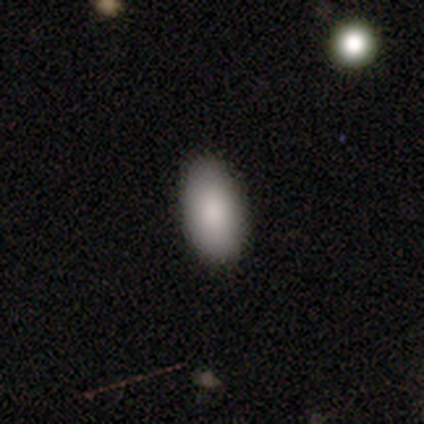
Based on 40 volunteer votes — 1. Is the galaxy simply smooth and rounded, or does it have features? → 90% smooth, 5% featured or disk, 5% star or artifact.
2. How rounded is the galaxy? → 94% in between, 3% round, 3% cigar-shaped.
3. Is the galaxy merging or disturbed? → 92% none, 8% minor disturbance, 0% major disturbance, 0% merger.